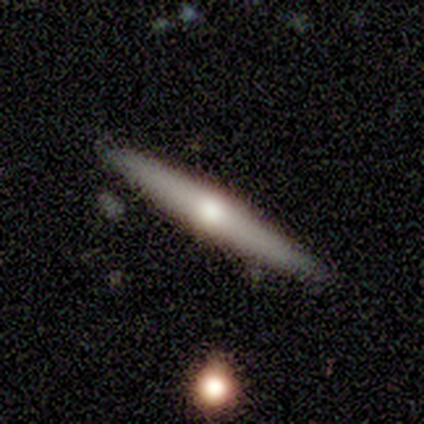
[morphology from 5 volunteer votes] Smooth or featured? smooth (60%)
How rounded? cigar-shaped (67%)
Merging? none (100%)